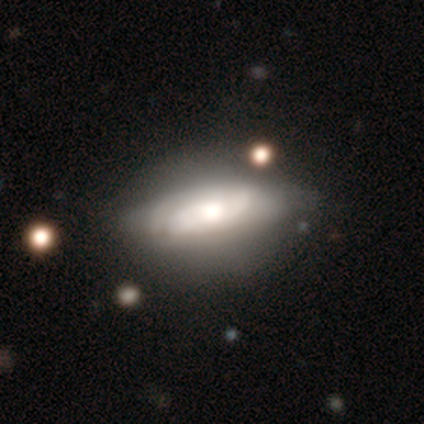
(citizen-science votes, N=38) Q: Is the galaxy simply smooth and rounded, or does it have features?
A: featured or disk — 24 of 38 (63%).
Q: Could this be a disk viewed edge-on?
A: no — 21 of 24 (88%).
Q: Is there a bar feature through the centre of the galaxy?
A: no — 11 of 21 (52%).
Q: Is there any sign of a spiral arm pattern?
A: yes — 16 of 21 (76%).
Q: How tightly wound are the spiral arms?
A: tight — 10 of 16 (62%).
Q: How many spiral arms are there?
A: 2 — 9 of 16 (56%).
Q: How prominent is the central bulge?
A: moderate — 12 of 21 (57%).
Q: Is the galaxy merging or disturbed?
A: none — 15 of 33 (45%).